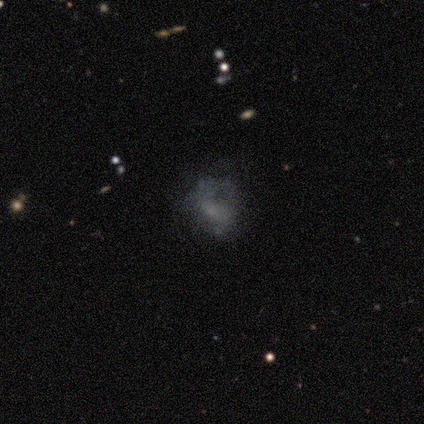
Overall: featured or disk (49%; smooth 32%). Edge-on disk: no (96%). Bar: no (64%; weak 27%). Spiral arms: no (64%; yes 36%). Bulge size: none (55%; small 36%). Merging: none (47%; major disturbance 26%).